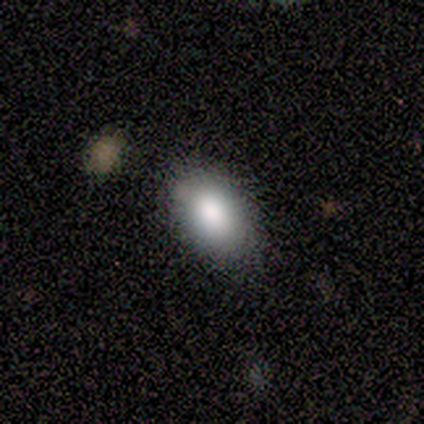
Volunteers were most divided on "merging": none: 78%, minor disturbance: 19%, major disturbance: 3%, merger: 0%. More confident: smooth or featured — smooth (84%); how rounded — in between (81%).